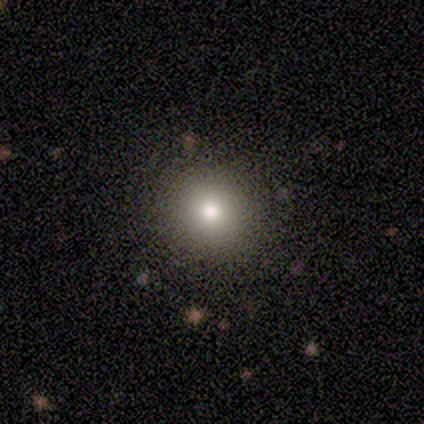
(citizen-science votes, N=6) Smooth or featured? smooth (83%)
How rounded? round (100%)
Merging? none (100%)